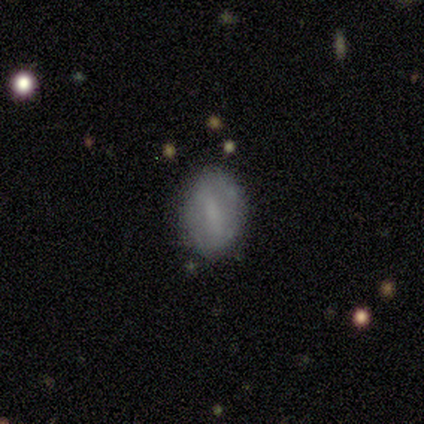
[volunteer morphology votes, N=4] type=smooth (75%); roundness=in between (67%); merging=none (100%).